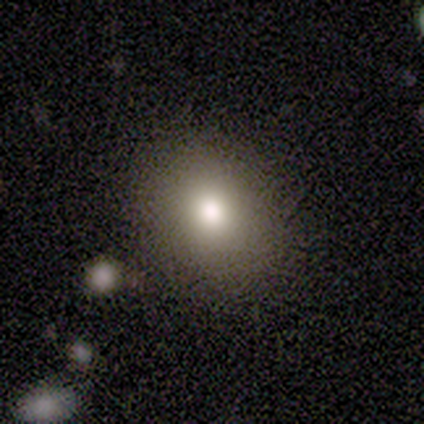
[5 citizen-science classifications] Smooth or featured?
  - smooth: 80% *
  - star or artifact: 20%
  - featured or disk: 0%
How rounded?
  - in between: 75% *
  - round: 25%
  - cigar-shaped: 0%
Merging?
  - none: 100% *
  - minor disturbance: 0%
  - major disturbance: 0%
  - merger: 0%